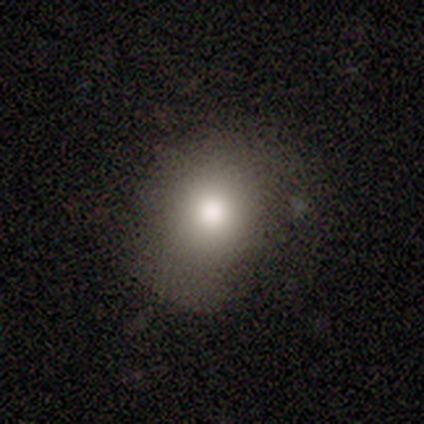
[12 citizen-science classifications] Smooth or featured?
  - smooth: 92% *
  - star or artifact: 8%
  - featured or disk: 0%
How rounded?
  - round: 55% *
  - in between: 45%
  - cigar-shaped: 0%
Merging?
  - none: 64% *
  - minor disturbance: 27%
  - major disturbance: 9%
  - merger: 0%